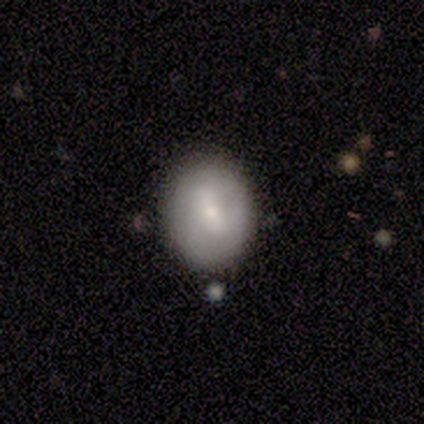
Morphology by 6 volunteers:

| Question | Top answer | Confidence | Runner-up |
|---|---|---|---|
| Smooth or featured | smooth | 67% | featured or disk (17%) |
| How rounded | round | 100% | — |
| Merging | minor disturbance | 60% | none (40%) |